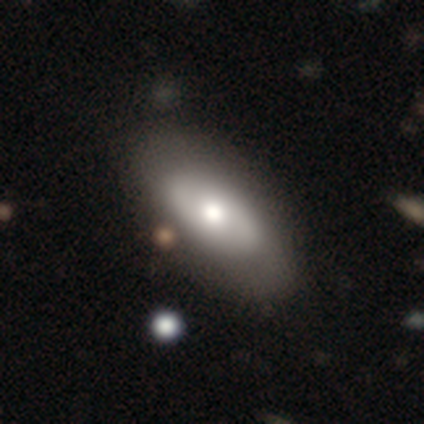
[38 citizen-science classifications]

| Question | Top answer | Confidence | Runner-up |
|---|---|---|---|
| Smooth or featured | featured or disk | 50% | smooth (45%) |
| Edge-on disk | no | 84% | yes (16%) |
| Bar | no | 75% | strong (19%) |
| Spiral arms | no | 56% | yes (44%) |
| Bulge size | moderate | 62% | large (31%) |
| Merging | none | 58% | minor disturbance (14%) |